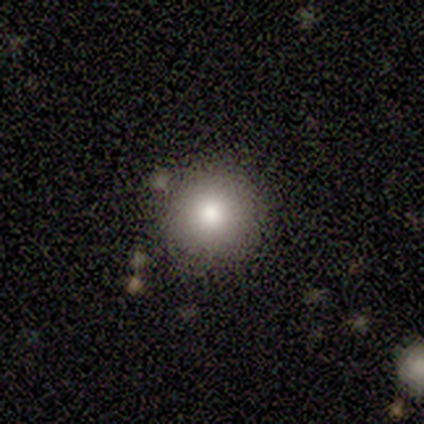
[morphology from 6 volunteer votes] This is clearly a smooth galaxy (83%). How rounded: clearly round (80%). Merging: clearly none (100%).